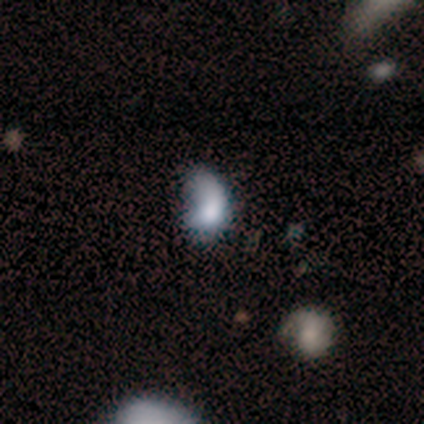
Volunteers were most divided on "merging": major disturbance: 40%, none: 31%, minor disturbance: 23%, merger: 6%. More confident: how rounded — in between (71%); smooth or featured — smooth (55%).